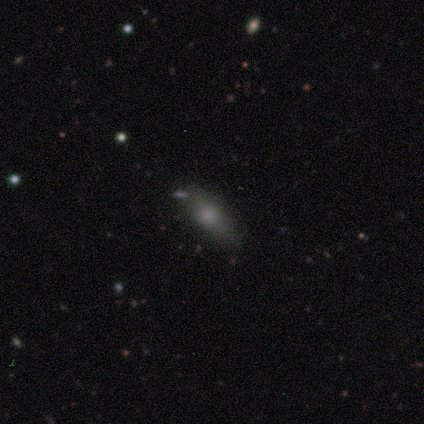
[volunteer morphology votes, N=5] smooth-or-featured: smooth: 80% | featured or disk: 20% | star or artifact: 0%
  how-rounded: cigar-shaped: 75% | in between: 25% | round: 0%
  merging: none: 60% | minor disturbance: 20% | merger: 20% | major disturbance: 0%